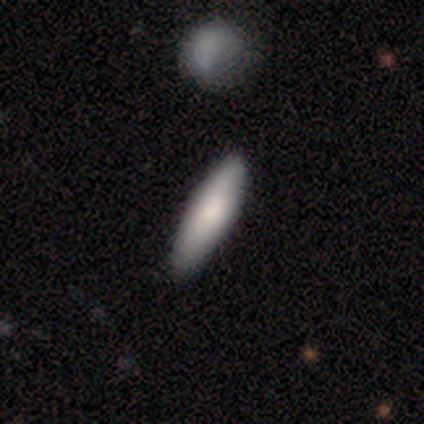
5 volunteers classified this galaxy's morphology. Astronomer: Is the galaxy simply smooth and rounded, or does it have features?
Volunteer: smooth — 80%.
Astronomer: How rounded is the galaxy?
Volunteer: cigar-shaped — 75%.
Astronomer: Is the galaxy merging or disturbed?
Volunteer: none — 100%.